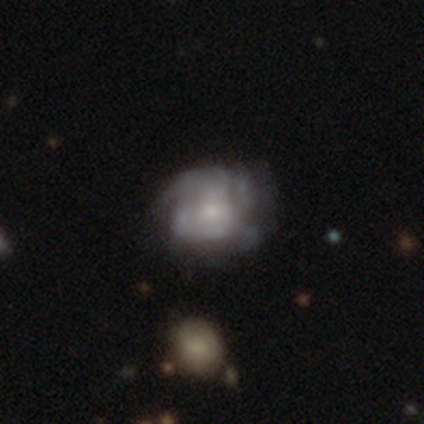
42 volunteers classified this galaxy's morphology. Smooth or featured?
  - featured or disk: 71% *
  - smooth: 17%
  - star or artifact: 12%
Edge-on disk?
  - no: 100% *
  - yes: 0%
Bar?
  - no: 87% *
  - weak: 10%
  - strong: 3%
Spiral arms?
  - yes: 70% *
  - no: 30%
Spiral winding?
  - tight: 48% *
  - medium: 43%
  - loose: 10%
Spiral arm count?
  - can't tell: 62% *
  - 2: 14%
  - 1: 10%
  - 3: 10%
  - 4: 5%
  - more than 4: 0%
Bulge size?
  - small: 77% *
  - moderate: 17%
  - none: 7%
  - dominant: 0%
  - large: 0%
Merging?
  - none: 62% *
  - minor disturbance: 19%
  - major disturbance: 14%
  - merger: 5%